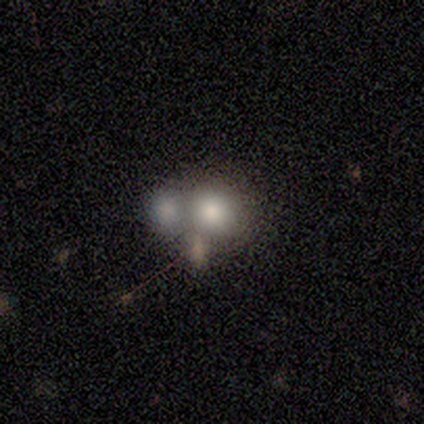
A smooth galaxy with no disk features (80%) that is round (75%). Merging: none (50%).